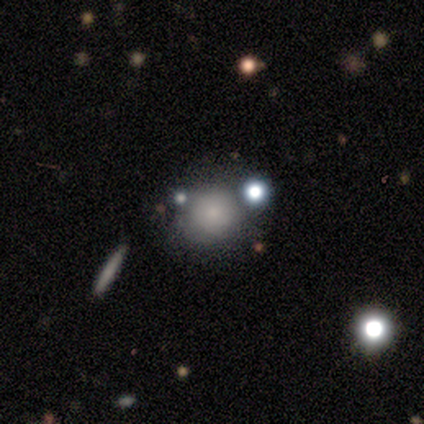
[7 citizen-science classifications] Smooth or featured? 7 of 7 (100%) said smooth. How rounded? 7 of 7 (100%) said round. Merging? 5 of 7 (71%) said none.